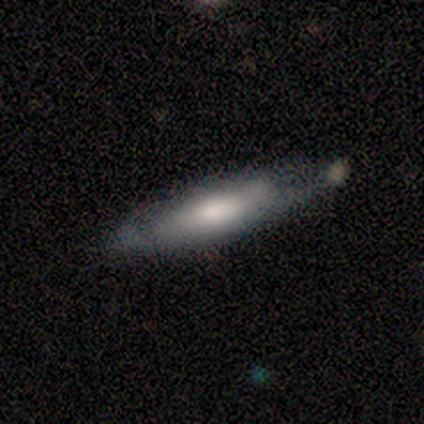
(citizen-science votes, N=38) Overall: smooth (47%, tied with featured or disk). How rounded: cigar-shaped (67%; in between 33%). Merging: none (72%).